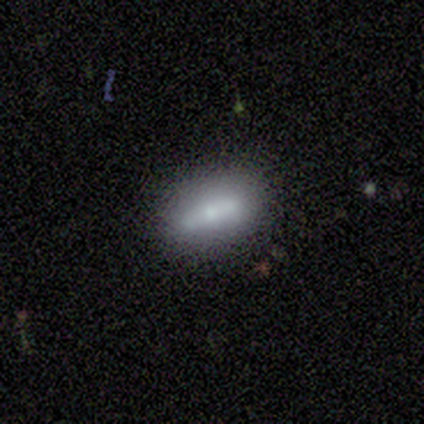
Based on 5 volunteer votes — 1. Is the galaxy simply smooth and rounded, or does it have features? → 80% featured or disk, 20% smooth, 0% star or artifact.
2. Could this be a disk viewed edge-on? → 75% no, 25% yes.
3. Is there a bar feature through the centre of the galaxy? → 67% no, 33% strong, 0% weak.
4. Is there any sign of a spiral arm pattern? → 100% no, 0% yes.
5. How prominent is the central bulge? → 67% small, 33% moderate, 0% dominant, 0% large, 0% none.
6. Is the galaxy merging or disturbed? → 80% none, 20% minor disturbance, 0% major disturbance, 0% merger.